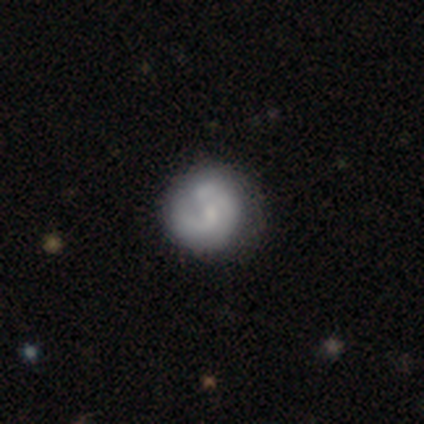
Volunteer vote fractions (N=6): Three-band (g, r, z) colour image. It shows a featured or disk galaxy (67%) with no bar (100%), 1 (50%, tied with 2) tight (100%) spiral arms (50%, tied with no) and a small central bulge (50%). Merging: none (80%).